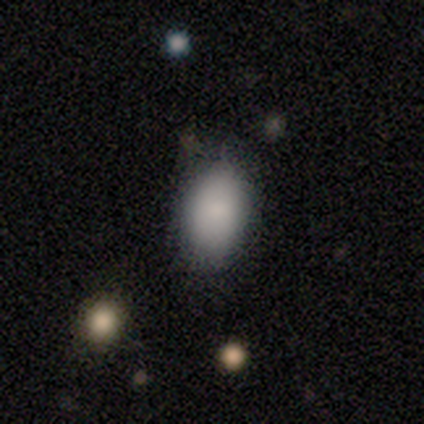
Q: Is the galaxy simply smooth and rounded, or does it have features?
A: smooth — 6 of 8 (75%).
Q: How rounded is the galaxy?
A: in between — 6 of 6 (100%).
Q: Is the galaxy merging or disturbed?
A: none — 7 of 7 (100%).